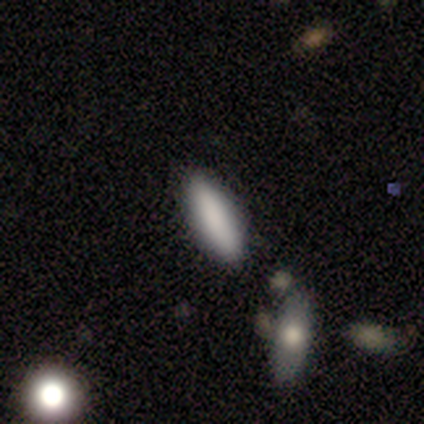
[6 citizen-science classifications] smooth_or_featured: smooth (p=0.67) [alt: featured or disk p=0.17]
how_rounded: in between (p=1.00)
merging: none (p=0.60) [alt: minor disturbance p=0.40]